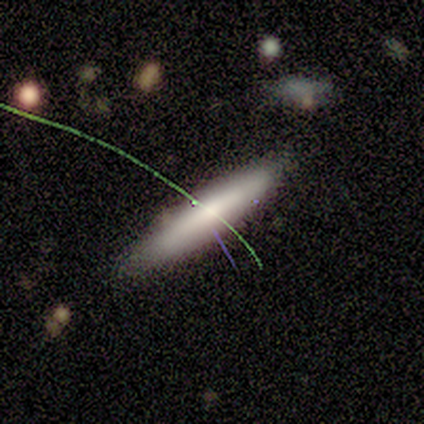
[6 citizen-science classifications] Q: Smooth or featured?
A: smooth (50%); tied with: featured or disk (50%)
Q: How rounded?
A: cigar-shaped (67%); runner-up: in between (33%)
Q: Merging?
A: none (100%)